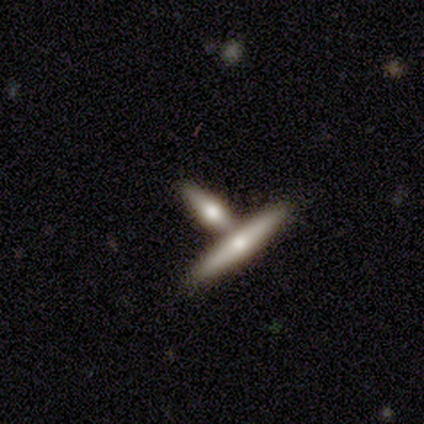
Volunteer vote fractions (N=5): Smooth or featured? smooth (60%)
How rounded? cigar-shaped (100%)
Merging? none (60%)